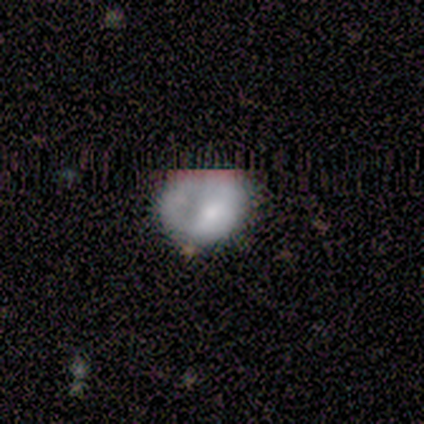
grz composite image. It shows a smooth galaxy with no disk features (59%) that is round (78%). Merging: none (62%).